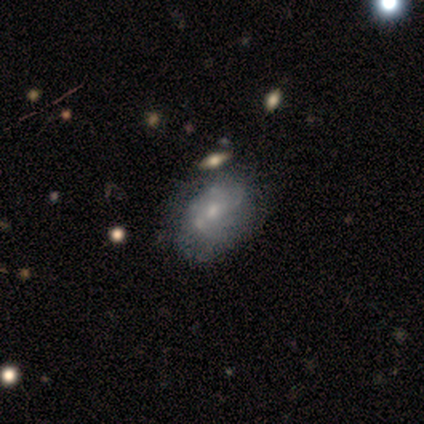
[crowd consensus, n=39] This appears to be a featured or disk galaxy (72%) with no bar (82%), no spiral arms (57%) and a small central bulge (71%). Merging: none (26%).